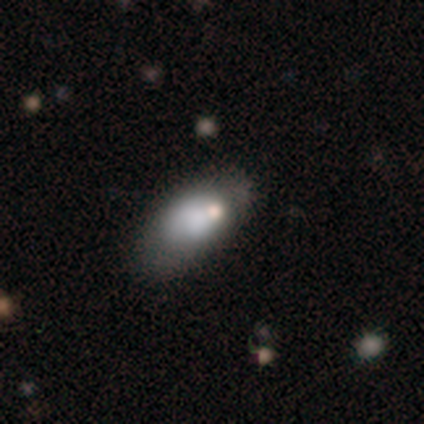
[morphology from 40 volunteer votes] Smooth or featured? 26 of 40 (65%) said smooth. How rounded? 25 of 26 (96%) said in between. Merging? 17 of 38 (45%) said none.